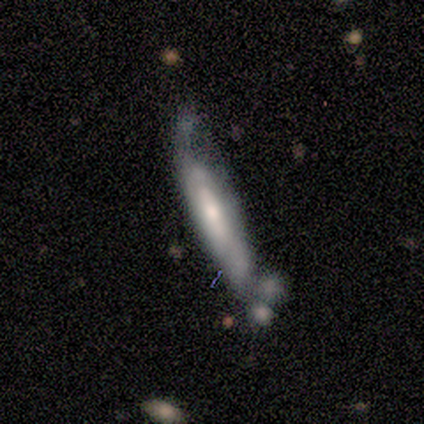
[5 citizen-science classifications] Smooth or featured? 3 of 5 (60%) said smooth. How rounded? 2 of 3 (67%) said cigar-shaped. Merging? 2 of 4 (50%) said merger.